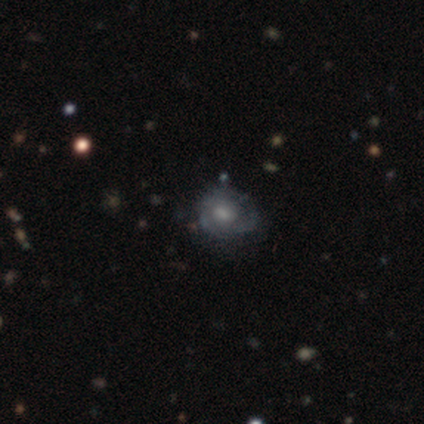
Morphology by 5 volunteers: This appears to be a featured or disk galaxy (80%) with no bar (75%), 3 (67%) tight (67%) spiral arms (75%) and a large central bulge (50%). Merging: none (40%, tied with minor disturbance).